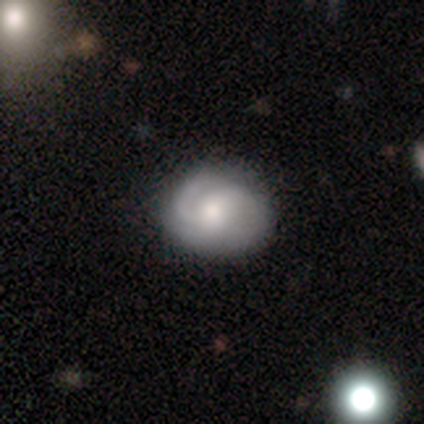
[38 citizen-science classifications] Smooth or featured?
  - featured or disk: 63% *
  - smooth: 29%
  - star or artifact: 8%
Edge-on disk?
  - no: 100% *
  - yes: 0%
Bar?
  - no: 62% *
  - weak: 38%
  - strong: 0%
Spiral arms?
  - yes: 96% *
  - no: 4%
Spiral winding?
  - medium: 43% *
  - tight: 39%
  - loose: 17%
Spiral arm count?
  - 2: 61% *
  - can't tell: 17%
  - 1: 13%
  - 3: 4%
  - 4: 4%
  - more than 4: 0%
Bulge size?
  - moderate: 71% *
  - large: 21%
  - small: 8%
  - dominant: 0%
  - none: 0%
Merging?
  - none: 66% *
  - minor disturbance: 11%
  - major disturbance: 3%
  - merger: 0%